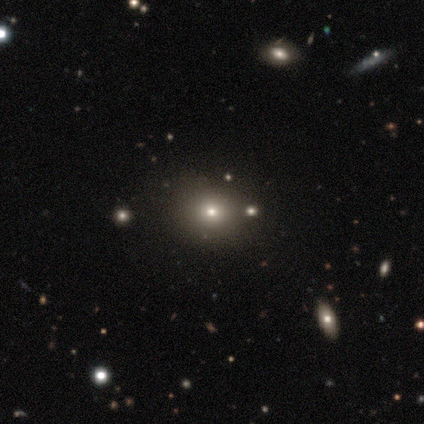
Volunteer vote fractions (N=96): smooth_or_featured: smooth (p=0.57) [alt: star or artifact p=0.33]
how_rounded: round (p=0.76) [alt: in between p=0.22]
merging: none (p=0.84) [alt: minor disturbance p=0.11]